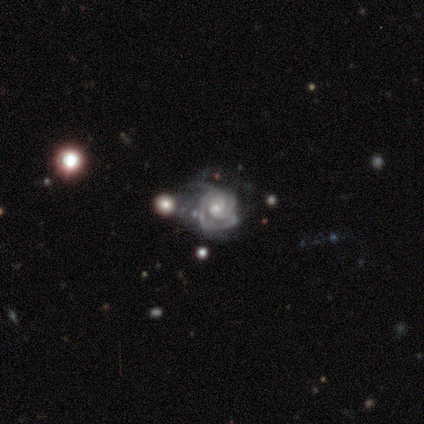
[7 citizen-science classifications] Overall: featured or disk (100%). Edge-on disk: no (100%). Bar: no (71%). Spiral arms: yes (100%). Spiral arm count: 4 (43%; can't tell 29%). Spiral winding: tight (86%). Bulge size: moderate (86%). Merging: none (57%; minor disturbance 43%).